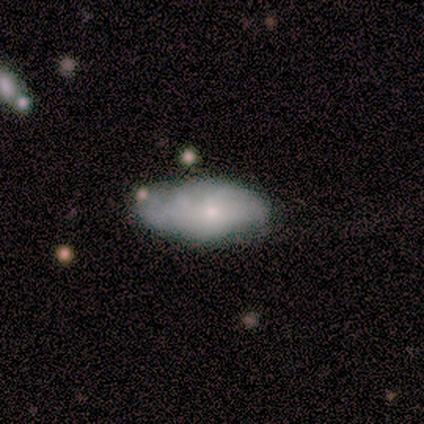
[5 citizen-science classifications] Smooth or featured? 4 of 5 (80%) said smooth. How rounded? 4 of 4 (100%) said in between. Merging? 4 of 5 (80%) said none.